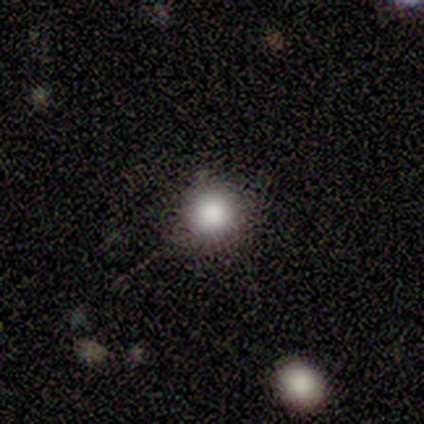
smooth 93%, featured or disk 7%, star or artifact 0%. Down the decision tree: how rounded — round (86%); merging — none (73%).